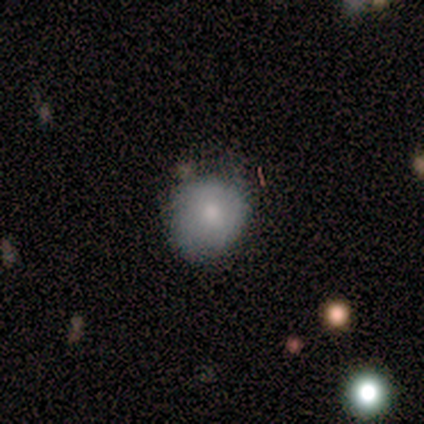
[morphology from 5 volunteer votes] Smooth or featured?
  - smooth: 40% * (tied)
  - featured or disk: 40% * (tied)
  - star or artifact: 20%
How rounded?
  - round: 50% * (tied)
  - in between: 50% * (tied)
  - cigar-shaped: 0%
Merging?
  - none: 75% *
  - minor disturbance: 25%
  - major disturbance: 0%
  - merger: 0%